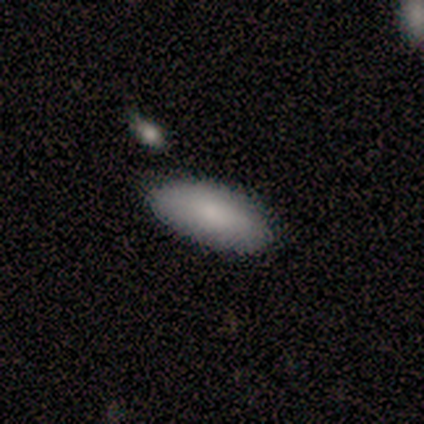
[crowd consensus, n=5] Q: Smooth or featured?
A: smooth (100%)
Q: How rounded?
A: in between (60%); runner-up: round (20%)
Q: Merging?
A: none (100%)